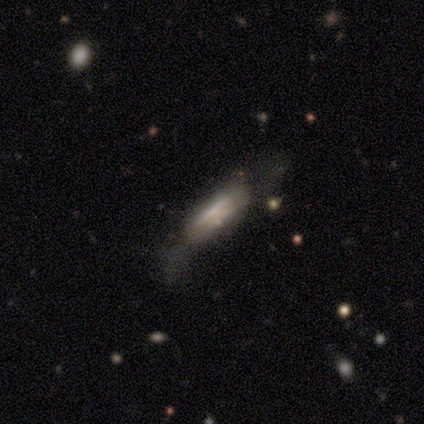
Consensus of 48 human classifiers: Overall: smooth (46%, tied with featured or disk). How rounded: cigar-shaped (73%). Merging: none (41%; major disturbance 32%).